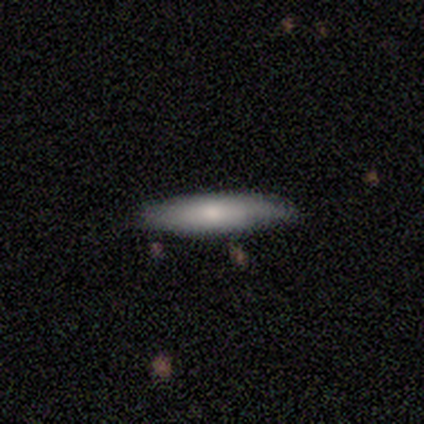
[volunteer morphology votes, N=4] A smooth galaxy with no disk features (50%, tied with featured or disk) that is cigar-shaped (100%).

Vote fractions:
- Smooth or featured? smooth: 50% (tied) / featured or disk: 50% (tied) / star or artifact: 0%
- How rounded? cigar-shaped: 100% / round: 0% / in between: 0%
- Merging? none: 75% / major disturbance: 25% / minor disturbance: 0% / merger: 0%